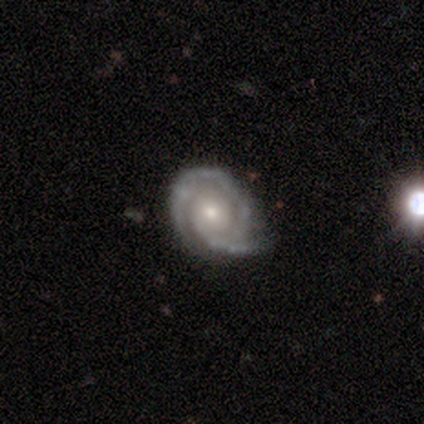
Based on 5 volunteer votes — Smooth or featured? featured or disk (60%)
Edge-on disk? no (100%)
Bar? no (100%)
Spiral arms? yes (100%)
Spiral winding? tight (67%)
Spiral arm count? 3 (67%)
Bulge size? small (100%)
Merging? none (60%)